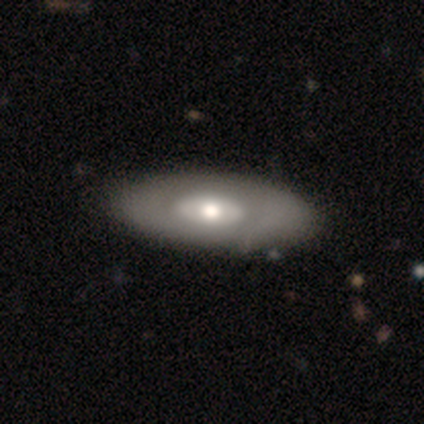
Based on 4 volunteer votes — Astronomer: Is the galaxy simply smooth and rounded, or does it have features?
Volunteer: smooth — 50%, tied with featured or disk at 50%.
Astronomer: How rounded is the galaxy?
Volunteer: in between — 100%.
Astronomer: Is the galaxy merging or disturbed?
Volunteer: none — 100%.